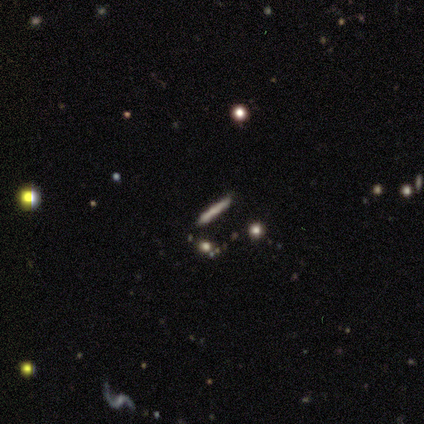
A smooth galaxy with no disk features (40%, tied with featured or disk) that is cigar-shaped (100%). Merging: none (100%).